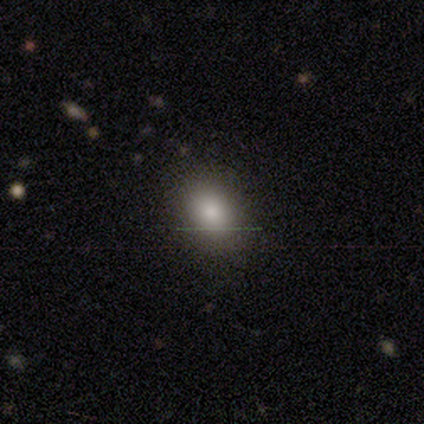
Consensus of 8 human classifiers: Smooth or featured: smooth — 100%
How rounded: in between — 75% (round — 25%)
Merging: none — 88% (major disturbance — 12%)